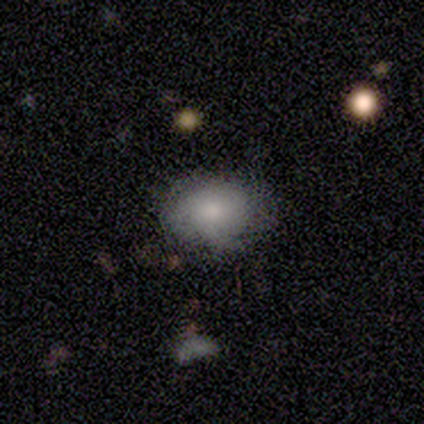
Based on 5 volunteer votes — smooth-or-featured: smooth: 80% | featured or disk: 20% | star or artifact: 0%
  how-rounded: in between: 100% | round: 0% | cigar-shaped: 0%
  merging: none: 100% | minor disturbance: 0% | major disturbance: 0% | merger: 0%